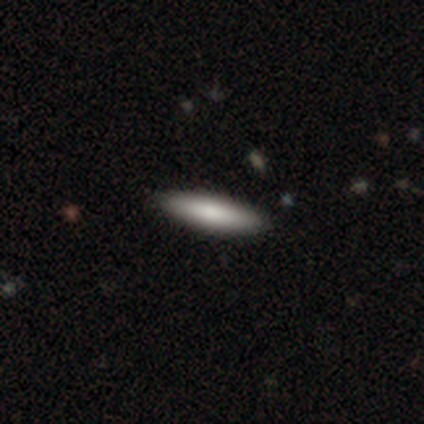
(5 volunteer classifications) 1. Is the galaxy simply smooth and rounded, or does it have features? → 80% smooth, 20% featured or disk, 0% star or artifact.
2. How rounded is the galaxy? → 100% cigar-shaped, 0% round, 0% in between.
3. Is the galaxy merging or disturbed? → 80% none, 20% minor disturbance, 0% major disturbance, 0% merger.